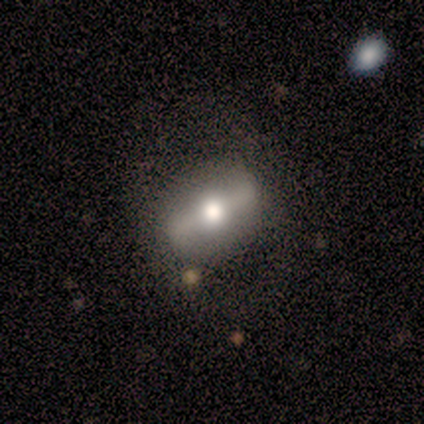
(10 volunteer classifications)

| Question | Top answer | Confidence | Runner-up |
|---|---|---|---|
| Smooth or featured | featured or disk | 60% | star or artifact (30%) |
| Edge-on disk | yes | 50% | tied: no (50%) |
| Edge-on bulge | rounded | 100% | — |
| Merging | none | 57% | minor disturbance (29%) |